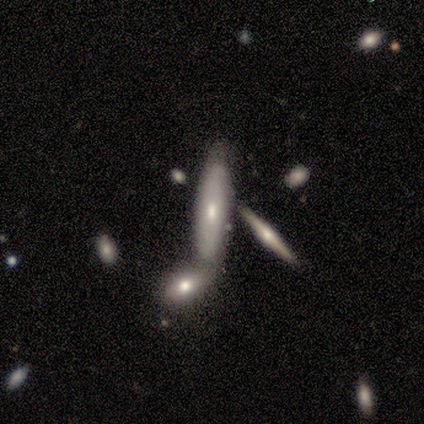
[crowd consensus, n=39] This is possibly a featured or disk galaxy (49%). It is likely viewed edge-on (63%). Edge-on bulge: likely rounded (67%). Merging: possibly merger (56%).